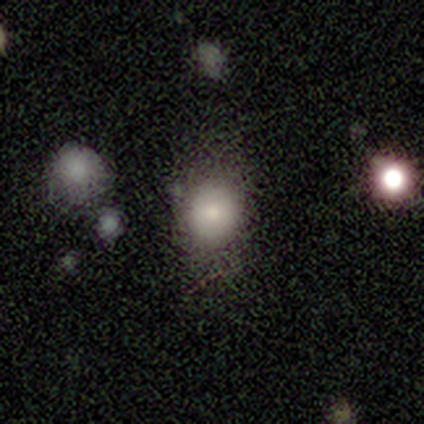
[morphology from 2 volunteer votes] A smooth galaxy with no disk features (100%) that is round (100%).

Vote fractions:
- Smooth or featured? smooth: 100% / featured or disk: 0% / star or artifact: 0%
- How rounded? round: 100% / in between: 0% / cigar-shaped: 0%
- Merging? none: 100% / minor disturbance: 0% / major disturbance: 0% / merger: 0%